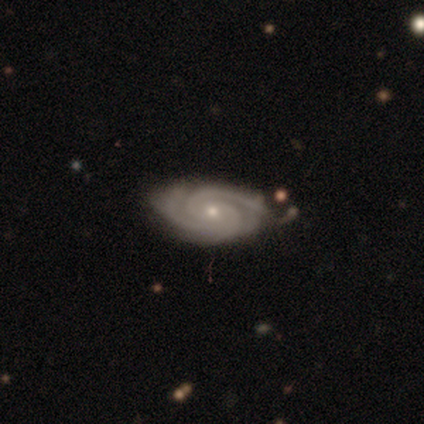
Smooth or featured? 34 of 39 (87%) said featured or disk. Edge-on disk? 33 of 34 (97%) said no. Bar? 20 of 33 (61%) said no. Spiral arms? 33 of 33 (100%) said yes. Spiral winding? 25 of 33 (76%) said tight. Spiral arm count? 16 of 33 (48%) said 2. Bulge size? 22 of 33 (67%) said small. Merging? 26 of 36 (72%) said none.